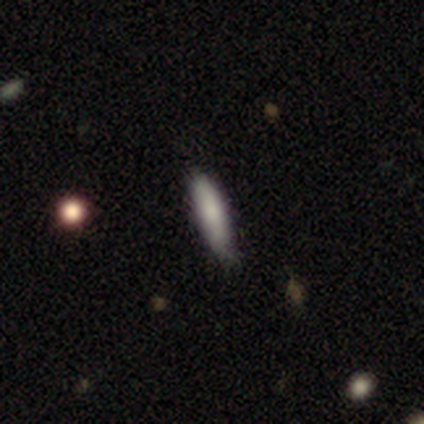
Morphology: type=smooth (60%); roundness=in between (100%); merging=none (60%).